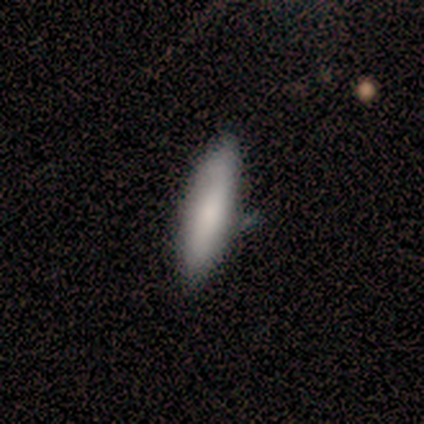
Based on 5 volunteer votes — A smooth galaxy with no disk features (80%) that is cigar-shaped (75%). Merging: none (100%).